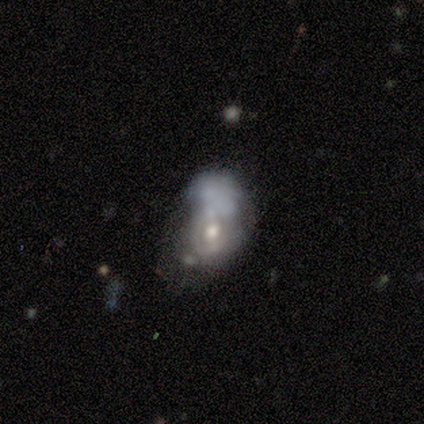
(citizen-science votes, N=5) smooth_or_featured: smooth (p=0.40) [tied with: featured or disk p=0.40]
how_rounded: in between (p=1.00)
merging: major disturbance (p=0.50) [alt: none p=0.25]